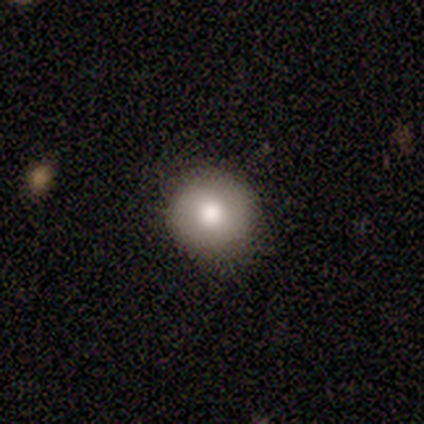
Q: Smooth or featured?
A: smooth (67%); runner-up: star or artifact (33%)
Q: How rounded?
A: round (100%)
Q: Merging?
A: none (100%)